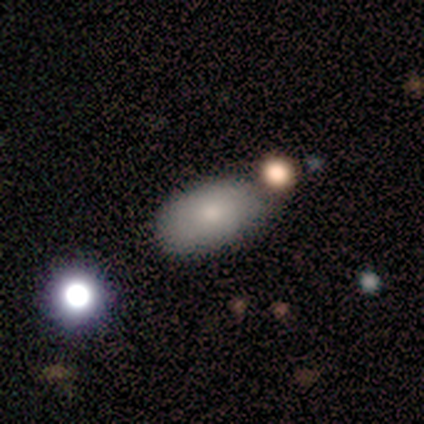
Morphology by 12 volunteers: Q: Smooth or featured?
A: smooth (75%); runner-up: featured or disk (17%)
Q: How rounded?
A: in between (100%)
Q: Merging?
A: none (91%); runner-up: merger (9%)